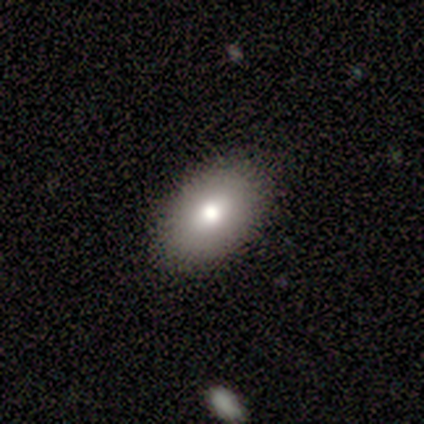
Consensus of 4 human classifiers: Smooth or featured?
  - featured or disk: 75% *
  - smooth: 25%
  - star or artifact: 0%
Edge-on disk?
  - no: 100% *
  - yes: 0%
Bar?
  - no: 67% *
  - weak: 33%
  - strong: 0%
Spiral arms?
  - no: 67% *
  - yes: 33%
Bulge size?
  - moderate: 67% *
  - small: 33%
  - dominant: 0%
  - large: 0%
  - none: 0%
Merging?
  - none: 75% *
  - major disturbance: 25%
  - minor disturbance: 0%
  - merger: 0%